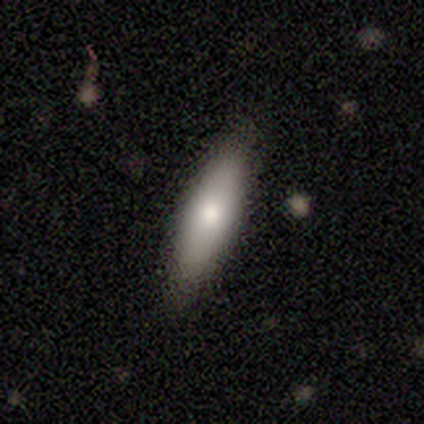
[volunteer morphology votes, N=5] A smooth galaxy with no disk features (100%) that is cigar-shaped (80%).

Vote fractions:
- Smooth or featured? smooth: 100% / featured or disk: 0% / star or artifact: 0%
- How rounded? cigar-shaped: 80% / in between: 20% / round: 0%
- Merging? none: 80% / merger: 20% / minor disturbance: 0% / major disturbance: 0%